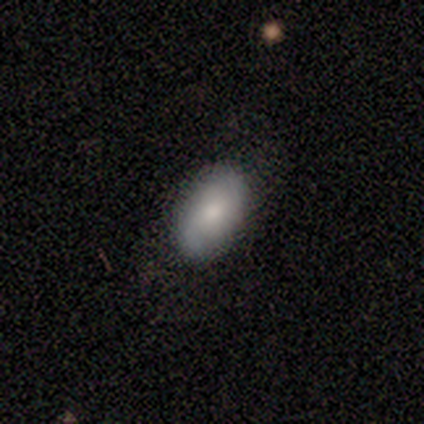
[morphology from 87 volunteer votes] Q: Smooth or featured?
A: smooth (63%); runner-up: featured or disk (31%)
Q: How rounded?
A: in between (87%); runner-up: round (11%)
Q: Merging?
A: none (80%); runner-up: major disturbance (10%)